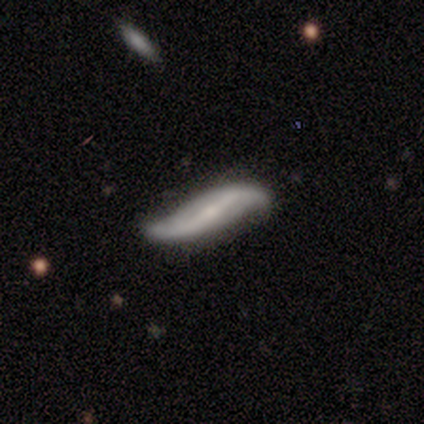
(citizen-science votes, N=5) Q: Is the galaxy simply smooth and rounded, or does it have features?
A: featured or disk — 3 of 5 (60%).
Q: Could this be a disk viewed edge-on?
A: yes — 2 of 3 (67%).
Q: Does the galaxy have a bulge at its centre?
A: none — 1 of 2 (50%, tied with rounded).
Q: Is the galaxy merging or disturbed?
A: none — 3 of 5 (60%).